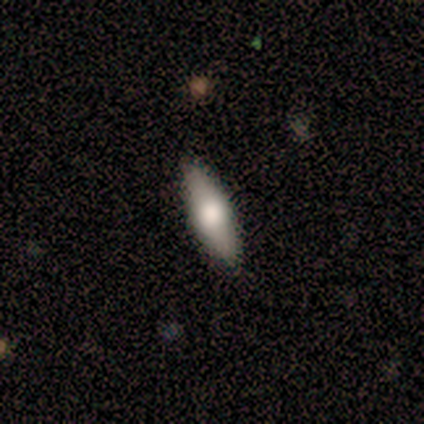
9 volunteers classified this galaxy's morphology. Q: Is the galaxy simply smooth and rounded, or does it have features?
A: smooth — 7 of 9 (78%).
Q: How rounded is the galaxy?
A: cigar-shaped — 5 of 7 (71%).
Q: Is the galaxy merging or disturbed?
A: none — 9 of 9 (100%).